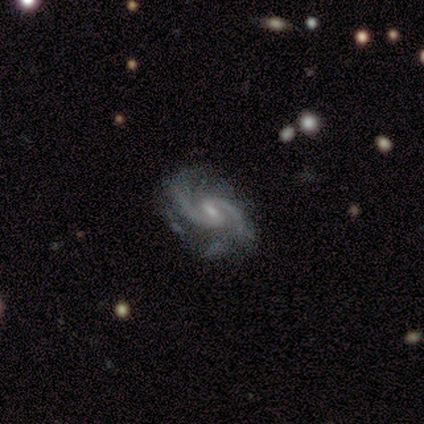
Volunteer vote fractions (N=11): featured or disk 100%, smooth 0%, star or artifact 0%. Down the decision tree: edge-on disk — no (100%); bar — weak (64%); spiral arms — yes (100%); spiral arm count — 2 (82%); spiral winding — medium (45%); bulge size — small (73%); merging — none (73%).